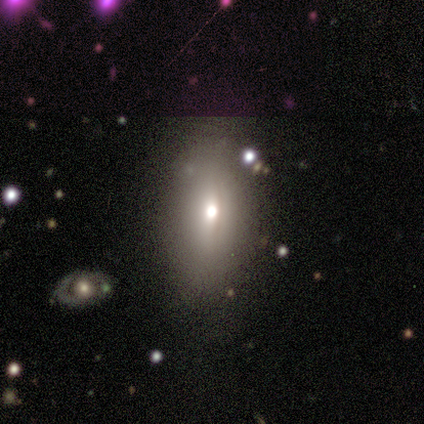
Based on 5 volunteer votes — Q: Smooth or featured?
A: star or artifact (60%); runner-up: smooth (40%)